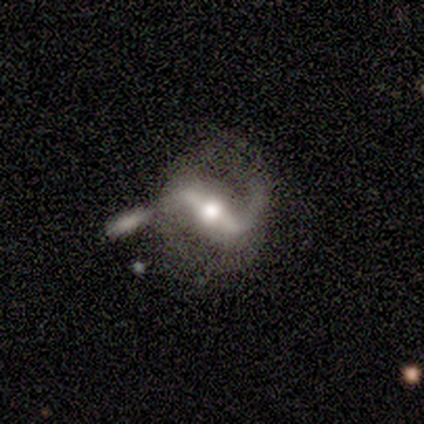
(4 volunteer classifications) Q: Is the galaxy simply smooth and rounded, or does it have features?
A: featured or disk — 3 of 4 (75%).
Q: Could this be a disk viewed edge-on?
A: no — 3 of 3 (100%).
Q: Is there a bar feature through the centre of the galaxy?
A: strong — 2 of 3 (67%).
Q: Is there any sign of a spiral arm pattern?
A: yes — 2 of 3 (67%).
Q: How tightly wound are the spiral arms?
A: loose — 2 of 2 (100%).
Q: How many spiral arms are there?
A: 2 — 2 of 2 (100%).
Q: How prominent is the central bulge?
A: moderate — 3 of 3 (100%).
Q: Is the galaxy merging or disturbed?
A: none — 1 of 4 (25%, tied with minor disturbance, major disturbance and merger).